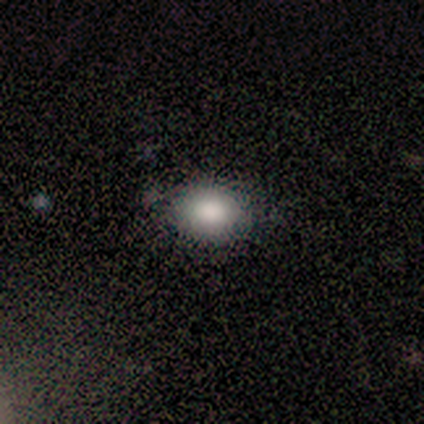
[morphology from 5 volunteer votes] Volunteers were most divided on "merging": none: 60%, minor disturbance: 20%, major disturbance: 20%, merger: 0%. More confident: smooth or featured — smooth (100%); how rounded — in between (80%).